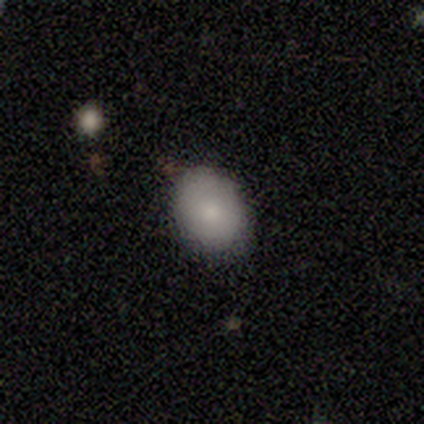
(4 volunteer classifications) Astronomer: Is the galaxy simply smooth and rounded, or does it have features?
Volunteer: smooth — 75%.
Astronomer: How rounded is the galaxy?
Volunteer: round — 67%.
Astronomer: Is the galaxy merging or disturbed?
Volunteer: none — 67%.